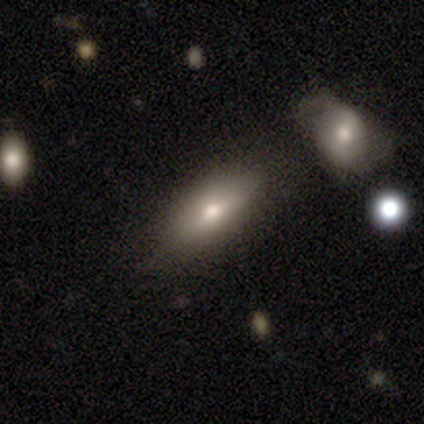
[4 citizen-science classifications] A smooth galaxy with no disk features (100%) that is in between round and cigar-shaped (100%). Merging: none (100%).